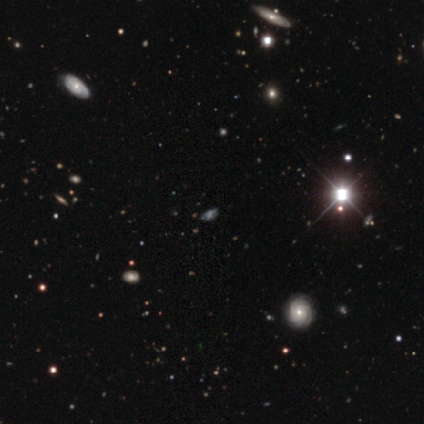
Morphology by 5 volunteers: A featured or disk galaxy (40%, tied with star or artifact) with no bar (100%), tight (50%, tied with medium) spiral arms (100%) and a small central bulge (50%, tied with none). Merging: none (67%).